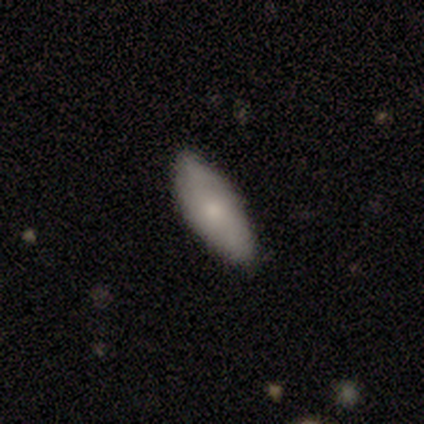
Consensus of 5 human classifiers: A smooth galaxy with no disk features (80%) that is in between round and cigar-shaped (75%).

Vote fractions:
- Smooth or featured? smooth: 80% / featured or disk: 20% / star or artifact: 0%
- How rounded? in between: 75% / cigar-shaped: 25% / round: 0%
- Merging? none: 100% / minor disturbance: 0% / major disturbance: 0% / merger: 0%